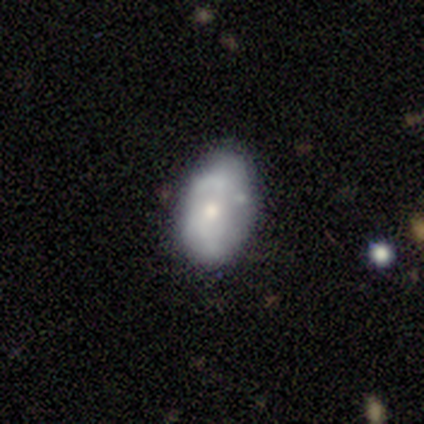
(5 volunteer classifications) A smooth galaxy with no disk features (60%) that is in between round and cigar-shaped (100%). Merging: none (60%).